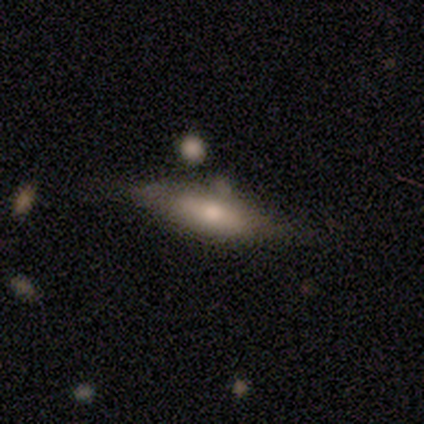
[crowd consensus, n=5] Q: Smooth or featured?
A: featured or disk (80%); runner-up: smooth (20%)
Q: Edge-on disk?
A: yes (75%); runner-up: no (25%)
Q: Edge-on bulge?
A: rounded (100%)
Q: Merging?
A: minor disturbance (60%); runner-up: none (40%)